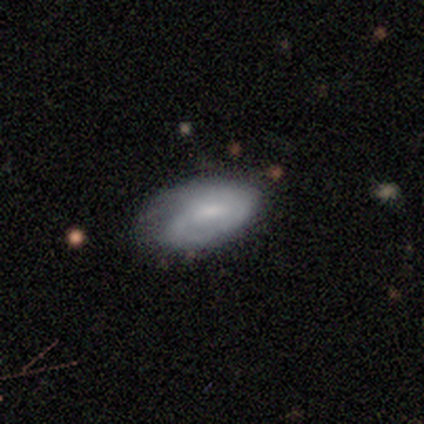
Volunteers were most divided on "merging": none: 56%, minor disturbance: 35%, merger: 6%, major disturbance: 3%. More confident: how rounded — in between (86%); smooth or featured — smooth (58%).